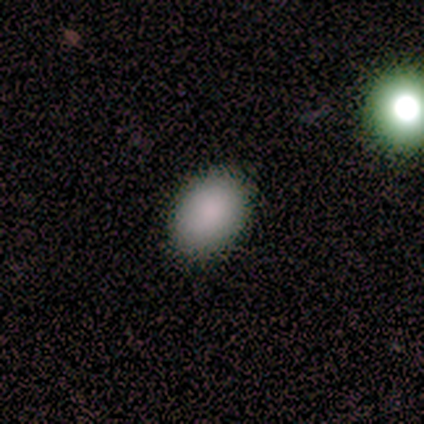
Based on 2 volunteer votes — A star or artifact, not a galaxy (100%).

Vote fractions:
- Smooth or featured? star or artifact: 100% / smooth: 0% / featured or disk: 0%